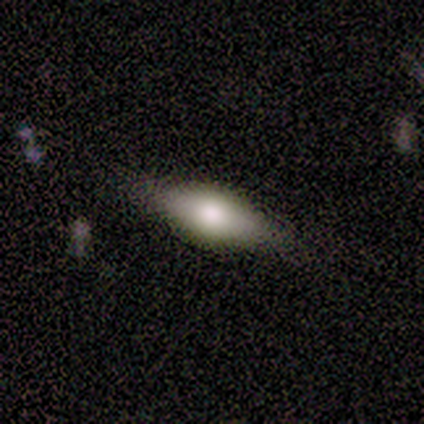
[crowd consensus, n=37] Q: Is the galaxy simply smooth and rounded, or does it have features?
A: smooth — 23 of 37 (62%).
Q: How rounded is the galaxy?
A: in between — 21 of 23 (91%).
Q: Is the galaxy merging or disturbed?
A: none — 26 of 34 (76%).